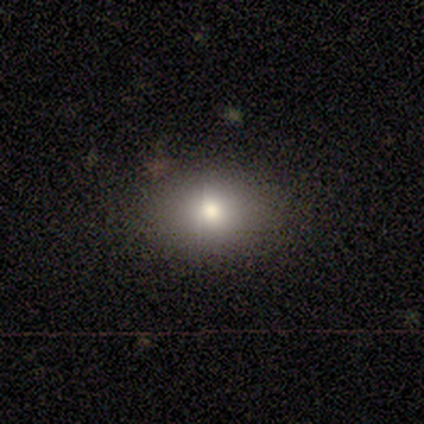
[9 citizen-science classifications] smooth-or-featured: smooth: 89% | featured or disk: 11% | star or artifact: 0%
  how-rounded: in between: 62% | round: 38% | cigar-shaped: 0%
  merging: none: 89% | minor disturbance: 11% | major disturbance: 0% | merger: 0%